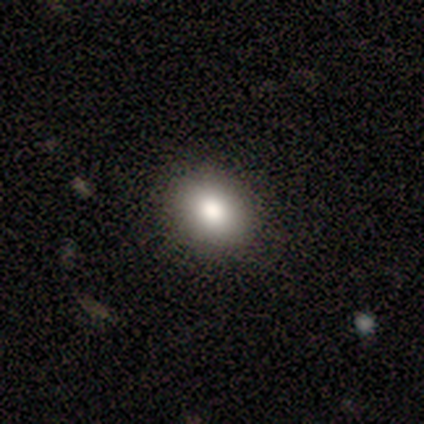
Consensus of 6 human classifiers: Overall: smooth (83%). How rounded: in between (60%; round 40%). Merging: none (80%).